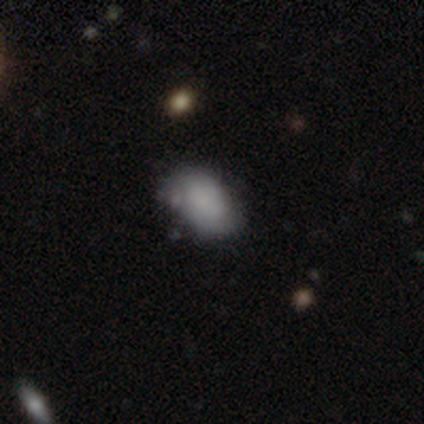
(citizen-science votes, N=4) A smooth galaxy with no disk features (100%) that is in between round and cigar-shaped (100%).

Vote fractions:
- Smooth or featured? smooth: 100% / featured or disk: 0% / star or artifact: 0%
- How rounded? in between: 100% / round: 0% / cigar-shaped: 0%
- Merging? none: 75% / minor disturbance: 25% / major disturbance: 0% / merger: 0%